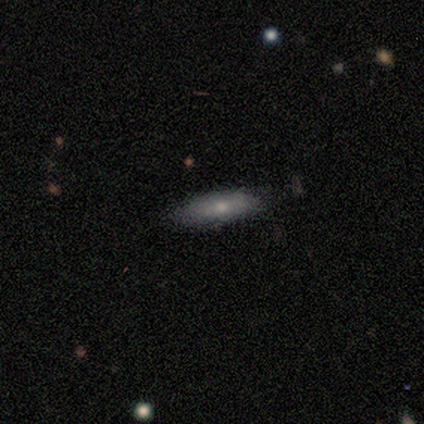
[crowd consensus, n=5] A smooth galaxy with no disk features (80%) that is cigar-shaped (75%).

Vote fractions:
- Smooth or featured? smooth: 80% / featured or disk: 20% / star or artifact: 0%
- How rounded? cigar-shaped: 75% / in between: 25% / round: 0%
- Merging? none: 100% / minor disturbance: 0% / major disturbance: 0% / merger: 0%